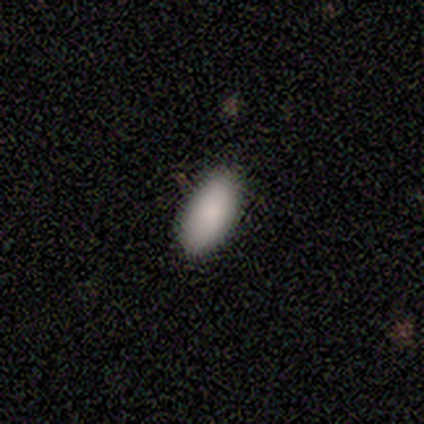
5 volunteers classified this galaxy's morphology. Overall: smooth (100%). How rounded: in between (100%). Merging: none (80%).